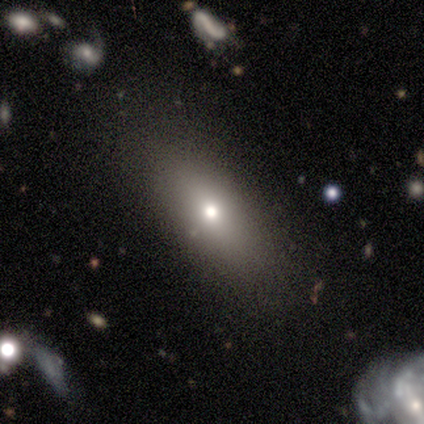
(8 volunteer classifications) smooth_or_featured: smooth (p=0.75) [alt: featured or disk p=0.12]
how_rounded: in between (p=0.83) [alt: round p=0.17]
merging: none (p=0.57) [alt: minor disturbance p=0.14]